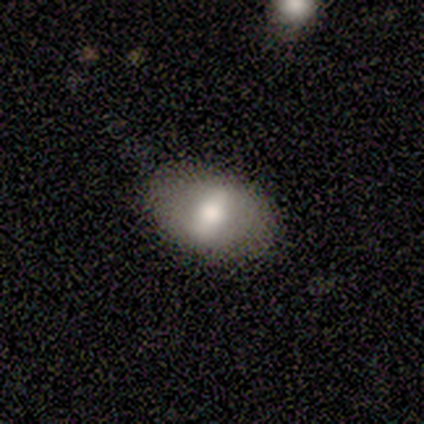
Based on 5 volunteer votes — smooth_or_featured: smooth (p=1.00)
how_rounded: in between (p=1.00)
merging: none (p=1.00)